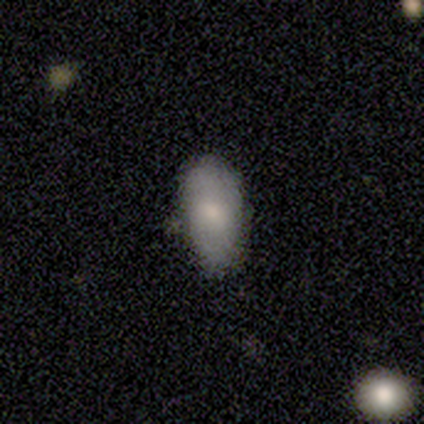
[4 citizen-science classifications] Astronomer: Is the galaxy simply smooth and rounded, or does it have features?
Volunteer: smooth — 75%.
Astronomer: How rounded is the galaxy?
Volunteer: in between — 100%.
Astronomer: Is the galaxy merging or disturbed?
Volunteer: none — 100%.